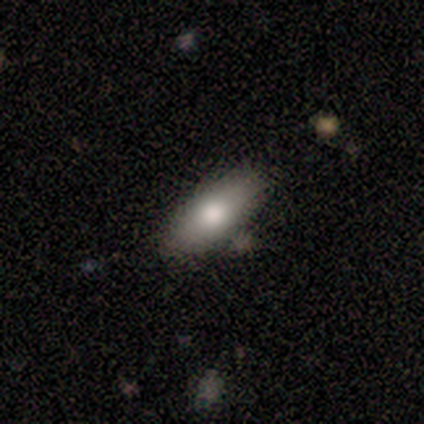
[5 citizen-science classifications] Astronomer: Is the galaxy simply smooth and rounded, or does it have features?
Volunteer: smooth — 80%.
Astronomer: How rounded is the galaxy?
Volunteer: in between — 75%.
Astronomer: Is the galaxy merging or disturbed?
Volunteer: none — 80%.